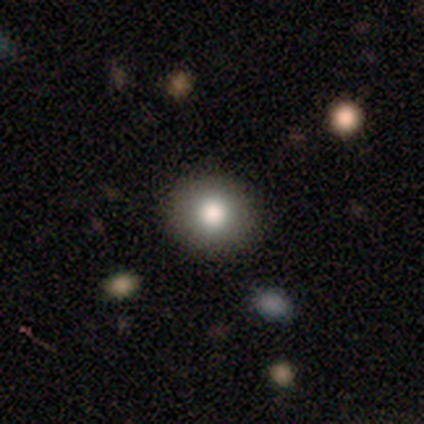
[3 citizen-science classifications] A smooth galaxy with no disk features (67%) that is round (100%).

Vote fractions:
- Smooth or featured? smooth: 67% / featured or disk: 33% / star or artifact: 0%
- How rounded? round: 100% / in between: 0% / cigar-shaped: 0%
- Merging? none: 67% / major disturbance: 33% / minor disturbance: 0% / merger: 0%